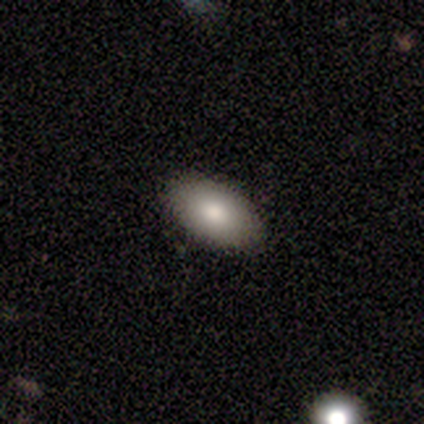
Smooth or featured?
  - smooth: 50% * (tied)
  - featured or disk: 50% * (tied)
  - star or artifact: 0%
How rounded?
  - in between: 100% *
  - round: 0%
  - cigar-shaped: 0%
Merging?
  - none: 75% *
  - minor disturbance: 25%
  - major disturbance: 0%
  - merger: 0%